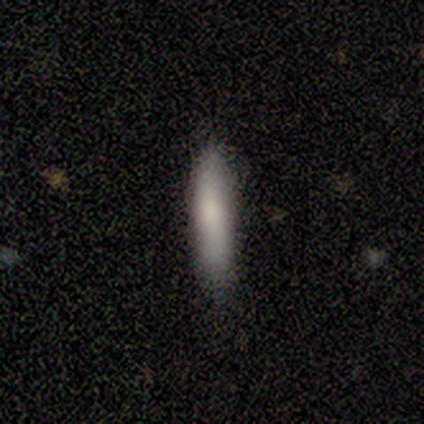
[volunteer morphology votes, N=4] Consensus on every question: smooth or featured — smooth (100%); how rounded — cigar-shaped (100%); merging — none (100%).